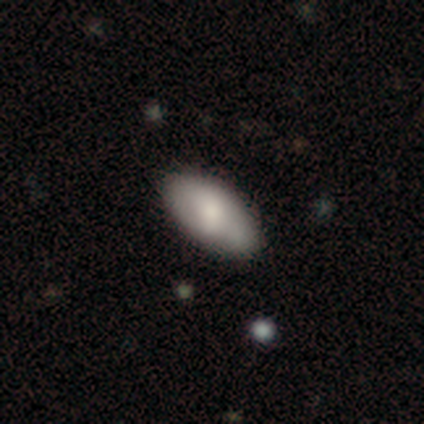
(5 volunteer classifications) Morphology: type=smooth (80%); roundness=in between (100%); merging=none (100%).